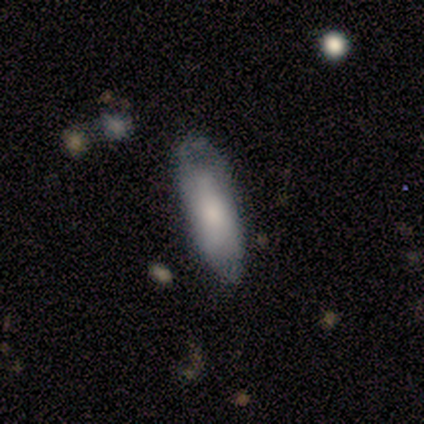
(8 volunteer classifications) A smooth galaxy with no disk features (50%) that is in between round and cigar-shaped (50%, tied with cigar-shaped).

Vote fractions:
- Smooth or featured? smooth: 50% / featured or disk: 38% / star or artifact: 12%
- How rounded? in between: 50% (tied) / cigar-shaped: 50% (tied) / round: 0%
- Merging? none: 57% / minor disturbance: 29% / major disturbance: 14% / merger: 0%